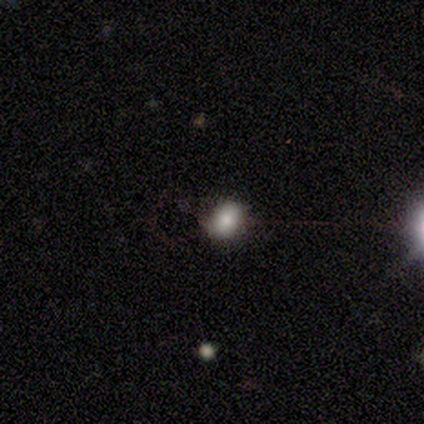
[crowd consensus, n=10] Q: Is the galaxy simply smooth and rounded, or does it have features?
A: smooth — 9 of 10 (90%).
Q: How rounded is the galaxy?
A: round — 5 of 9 (56%).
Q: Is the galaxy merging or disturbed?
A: none — 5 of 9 (56%).